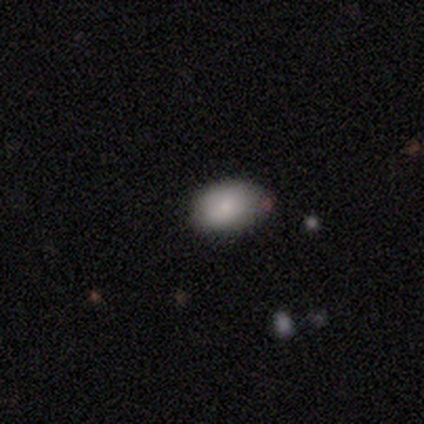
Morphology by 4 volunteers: smooth 100%, featured or disk 0%, star or artifact 0%. Down the decision tree: how rounded — in between (100%); merging — none (50%, tied with minor disturbance).